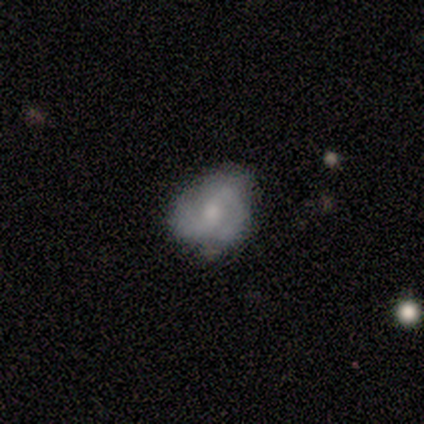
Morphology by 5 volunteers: Smooth or featured? smooth (60%)
How rounded? round (67%)
Merging? minor disturbance (75%)